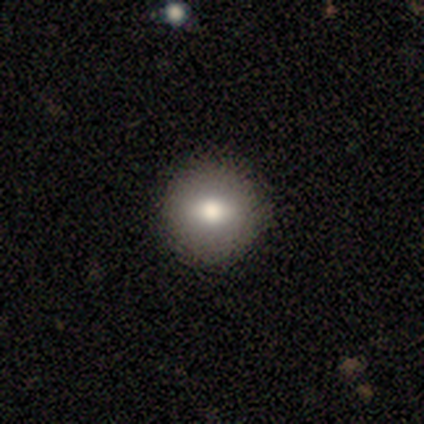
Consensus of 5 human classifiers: smooth 100%, featured or disk 0%, star or artifact 0%. Down the decision tree: how rounded — round (60%); merging — none (100%).